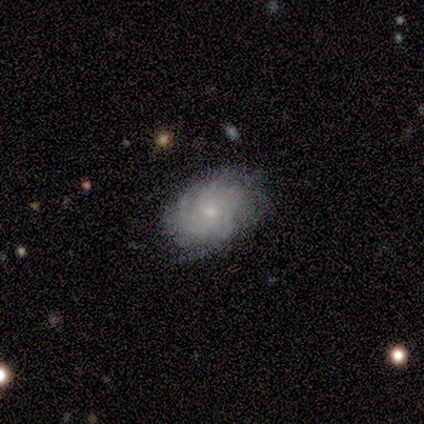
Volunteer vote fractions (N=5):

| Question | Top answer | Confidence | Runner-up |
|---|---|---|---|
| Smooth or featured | featured or disk | 100% | — |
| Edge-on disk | no | 100% | — |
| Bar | weak | 40% | tied: no (40%) |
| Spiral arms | yes | 80% | no (20%) |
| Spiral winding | tight | 75% | medium (25%) |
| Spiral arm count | more than 4 | 50% | tied: can't tell (50%) |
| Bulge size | small | 60% | moderate (20%) |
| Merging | none | 80% | minor disturbance (20%) |